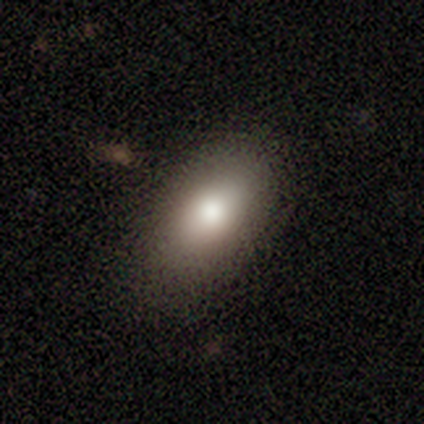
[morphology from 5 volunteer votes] smooth 80%, featured or disk 20%, star or artifact 0%. Down the decision tree: how rounded — in between (100%); merging — none (60%).